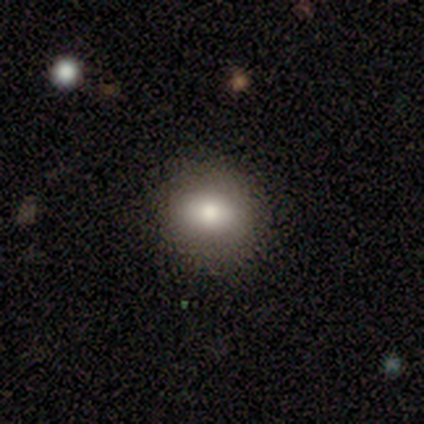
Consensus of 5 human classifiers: A smooth galaxy with no disk features (80%) that is in between round and cigar-shaped (75%).

Vote fractions:
- Smooth or featured? smooth: 80% / featured or disk: 20% / star or artifact: 0%
- How rounded? in between: 75% / round: 25% / cigar-shaped: 0%
- Merging? none: 80% / minor disturbance: 20% / major disturbance: 0% / merger: 0%